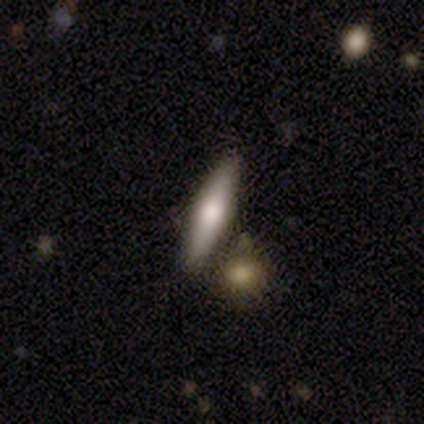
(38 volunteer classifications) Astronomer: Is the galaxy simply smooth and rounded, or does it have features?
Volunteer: smooth — 47% (runner-up: featured or disk, 42%).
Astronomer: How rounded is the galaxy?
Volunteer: cigar-shaped — 78%.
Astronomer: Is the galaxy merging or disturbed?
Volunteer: none — 76%.